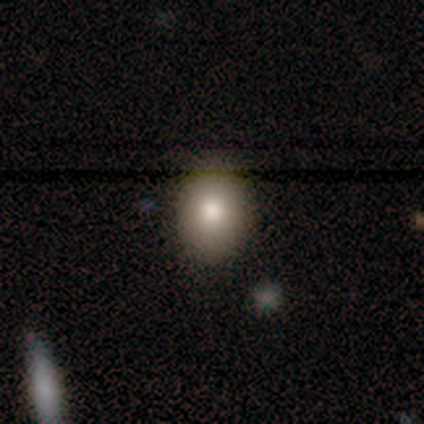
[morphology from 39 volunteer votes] Smooth or featured?
  - smooth: 77% *
  - featured or disk: 13%
  - star or artifact: 10%
How rounded?
  - round: 50% * (tied)
  - in between: 50% * (tied)
  - cigar-shaped: 0%
Merging?
  - none: 83% *
  - minor disturbance: 11%
  - major disturbance: 6%
  - merger: 0%